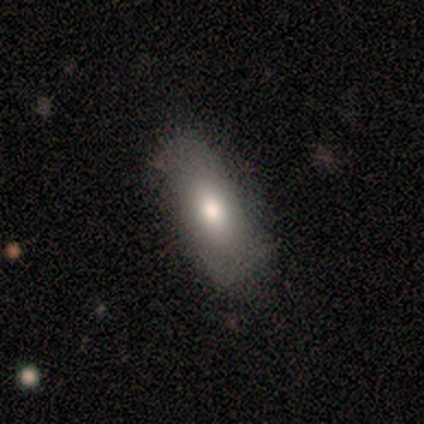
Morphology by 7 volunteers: This is clearly a smooth galaxy (86%). How rounded: clearly in between (100%). Merging: possibly none (57%).